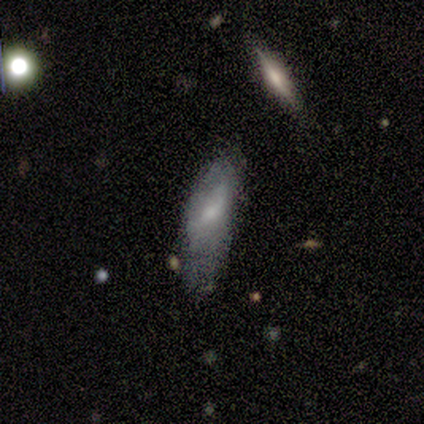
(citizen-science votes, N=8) smooth_or_featured: smooth (p=0.75) [alt: featured or disk p=0.25]
how_rounded: in between (p=0.83) [alt: cigar-shaped p=0.17]
merging: minor disturbance (p=0.38) [tied with: major disturbance p=0.38]